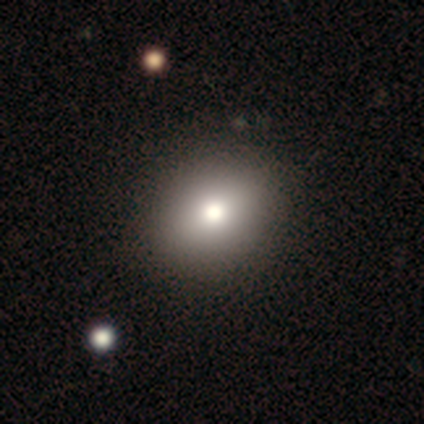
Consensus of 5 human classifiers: Smooth or featured?
  - smooth: 100% *
  - featured or disk: 0%
  - star or artifact: 0%
How rounded?
  - round: 80% *
  - in between: 20%
  - cigar-shaped: 0%
Merging?
  - none: 80% *
  - minor disturbance: 20%
  - major disturbance: 0%
  - merger: 0%